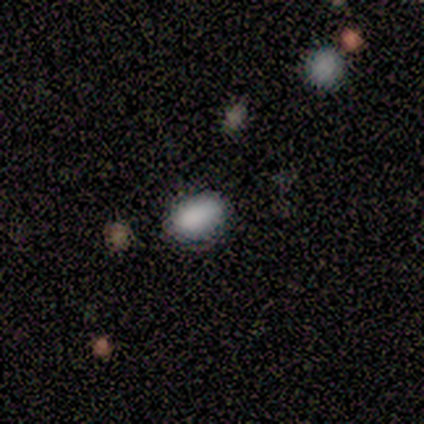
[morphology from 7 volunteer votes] This is likely a smooth galaxy (71%). How rounded: clearly in between (100%). Merging: clearly none (83%).